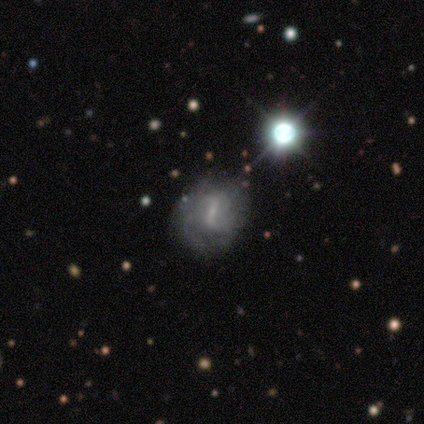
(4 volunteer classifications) Smooth or featured? featured or disk (100%)
Edge-on disk? no (100%)
Bar? weak (50%, tied with no)
Spiral arms? yes (50%, tied with no)
Spiral winding? tight (50%, tied with medium)
Spiral arm count? can't tell (100%)
Bulge size? small (50%, tied with none)
Merging? none (50%, tied with minor disturbance)